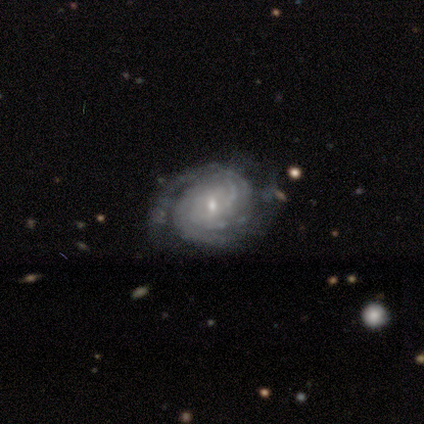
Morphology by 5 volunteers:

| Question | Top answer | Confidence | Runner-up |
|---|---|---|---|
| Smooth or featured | featured or disk | 100% | — |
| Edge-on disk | no | 100% | — |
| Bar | weak | 40% | tied: no (40%) |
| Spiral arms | yes | 100% | — |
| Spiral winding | tight | 100% | — |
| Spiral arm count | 3 | 40% | tied: can't tell (40%) |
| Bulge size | small | 80% | moderate (20%) |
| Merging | none | 60% | minor disturbance (20%) |